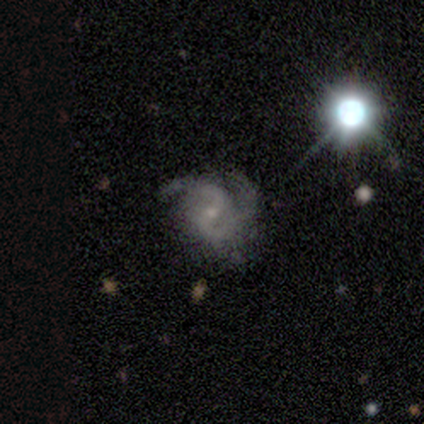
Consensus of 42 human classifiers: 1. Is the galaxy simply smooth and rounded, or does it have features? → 90% featured or disk, 5% smooth, 5% star or artifact.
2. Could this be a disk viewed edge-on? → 95% no, 5% yes.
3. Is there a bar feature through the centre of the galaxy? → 44% weak, 42% no, 14% strong.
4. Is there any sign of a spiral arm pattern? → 97% yes, 3% no.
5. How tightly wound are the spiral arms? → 49% medium, 40% tight, 11% loose.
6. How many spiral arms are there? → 74% 2, 20% 3, 3% 1, 3% can't tell, 0% 4, 0% more than 4.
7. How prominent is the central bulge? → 83% small, 14% moderate, 3% none, 0% dominant, 0% large.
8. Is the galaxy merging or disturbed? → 57% none, 22% major disturbance, 18% minor disturbance, 2% merger.